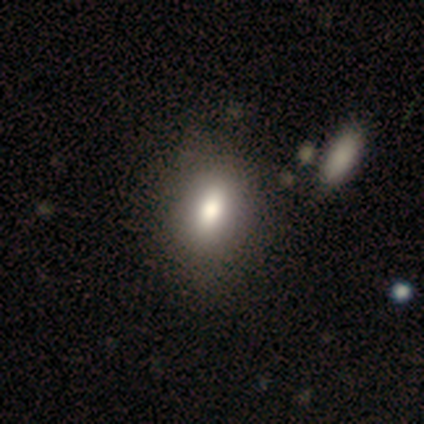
Smooth or featured?
  - smooth: 80% *
  - star or artifact: 20%
  - featured or disk: 0%
How rounded?
  - in between: 100% *
  - round: 0%
  - cigar-shaped: 0%
Merging?
  - none: 75% *
  - minor disturbance: 25%
  - major disturbance: 0%
  - merger: 0%